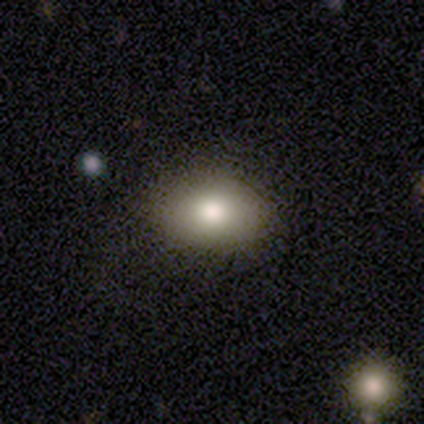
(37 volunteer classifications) A smooth galaxy with no disk features (73%) that is in between round and cigar-shaped (74%). Merging: none (100%).